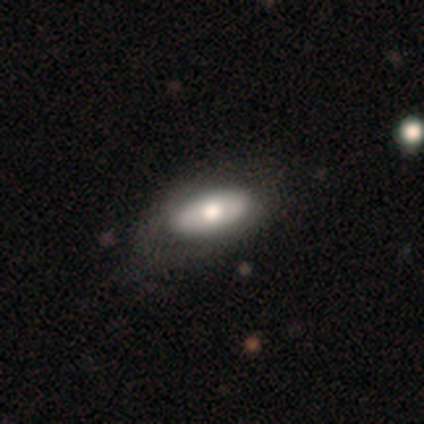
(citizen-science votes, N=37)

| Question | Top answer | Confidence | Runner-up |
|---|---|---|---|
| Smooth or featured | smooth | 68% | featured or disk (32%) |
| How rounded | in between | 76% | cigar-shaped (16%) |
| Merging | none | 38% | minor disturbance (30%) |